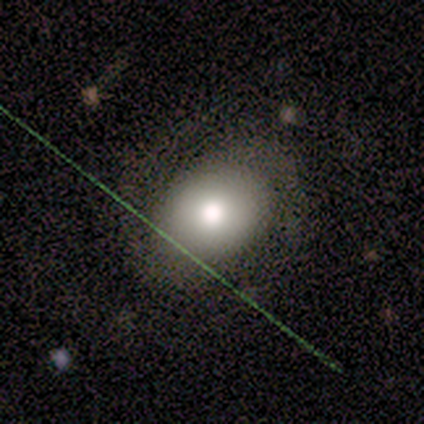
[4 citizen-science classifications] smooth_or_featured: featured or disk (p=0.75) [alt: smooth p=0.25]
disk_edge_on: no (p=1.00)
bar: no (p=0.67) [alt: strong p=0.33]
has_spiral_arms: yes (p=1.00)
spiral_winding: tight (p=0.67) [alt: medium p=0.33]
spiral_arm_count: 2 (p=1.00)
bulge_size: large (p=0.67) [alt: moderate p=0.33]
merging: none (p=1.00)